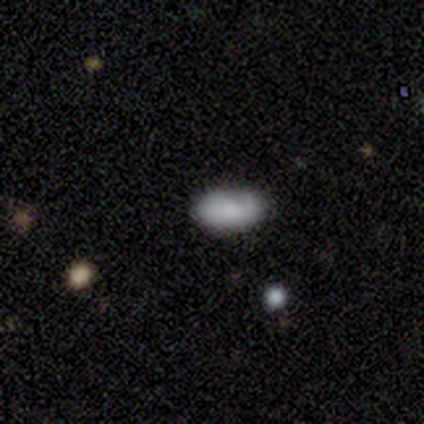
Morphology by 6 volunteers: A smooth galaxy with no disk features (67%) that is in between round and cigar-shaped (100%). Merging: none (100%).